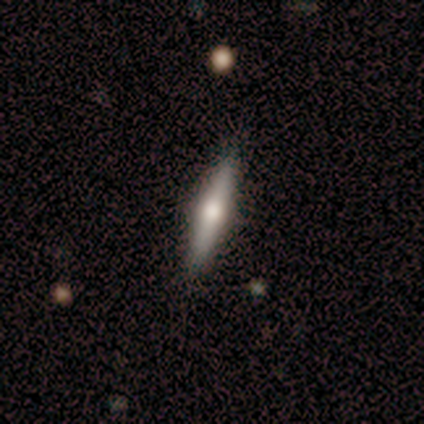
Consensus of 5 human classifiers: featured or disk 60%, smooth 40%, star or artifact 0%. Down the decision tree: edge-on disk — yes (100%); edge-on bulge — rounded (100%); merging — none (100%).